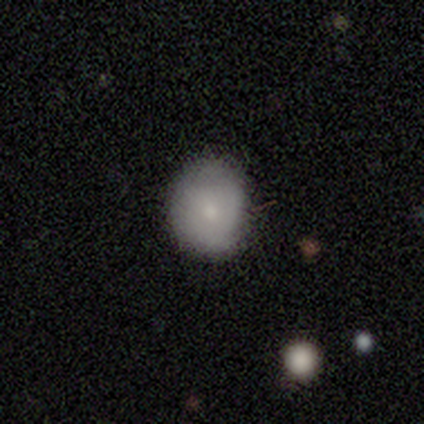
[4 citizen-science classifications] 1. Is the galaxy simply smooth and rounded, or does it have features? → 50% smooth (tied), 50% featured or disk (tied), 0% star or artifact.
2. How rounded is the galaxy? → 100% round, 0% in between, 0% cigar-shaped.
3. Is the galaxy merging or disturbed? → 100% none, 0% minor disturbance, 0% major disturbance, 0% merger.